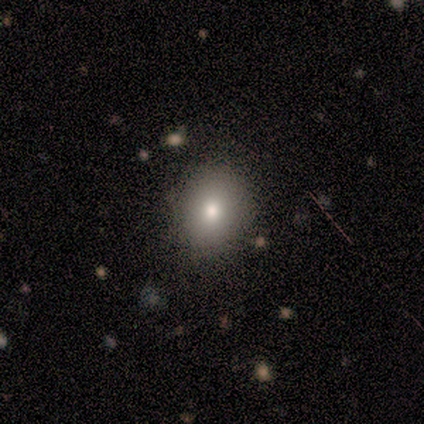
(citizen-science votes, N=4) smooth 100%, featured or disk 0%, star or artifact 0%. Down the decision tree: how rounded — round (75%); merging — none (100%).